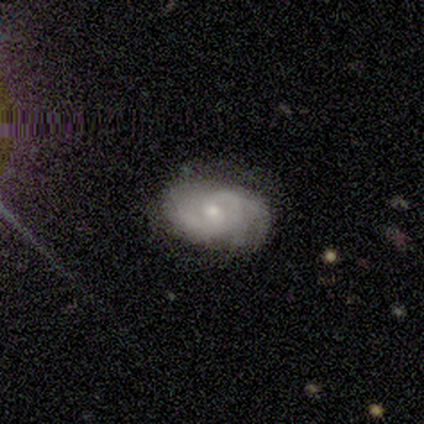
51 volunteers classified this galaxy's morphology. Overall: featured or disk (73%). Edge-on disk: no (100%). Bar: no (68%; weak 32%). Spiral arms: yes (95%). Spiral arm count: 2 (34%; 3 31%). Spiral winding: tight (46%, tied with medium). Bulge size: small (59%; moderate 38%). Merging: none (76%).